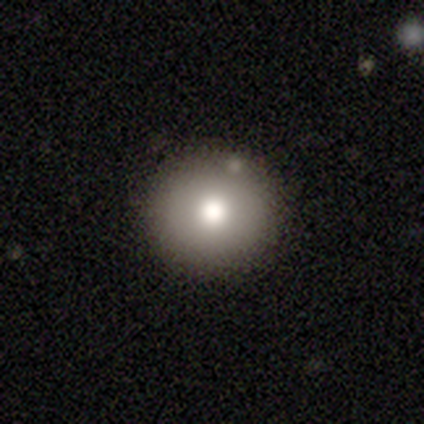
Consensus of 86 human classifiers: smooth-or-featured: smooth: 73% | featured or disk: 14% | star or artifact: 13%
  how-rounded: round: 95% | in between: 5% | cigar-shaped: 0%
  merging: none: 88% | minor disturbance: 8% | merger: 4% | major disturbance: 0%